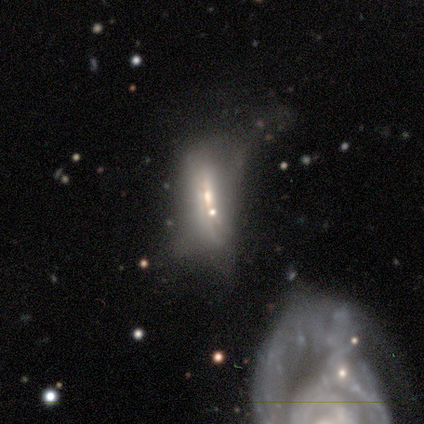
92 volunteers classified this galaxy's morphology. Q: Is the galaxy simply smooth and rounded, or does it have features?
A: featured or disk — 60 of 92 (65%).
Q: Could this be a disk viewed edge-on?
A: no — 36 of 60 (60%).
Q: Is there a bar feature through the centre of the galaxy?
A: no — 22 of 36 (61%).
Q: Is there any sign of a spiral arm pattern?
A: no — 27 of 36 (75%).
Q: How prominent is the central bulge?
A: moderate — 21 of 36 (58%).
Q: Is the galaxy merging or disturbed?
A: major disturbance — 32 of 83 (39%).